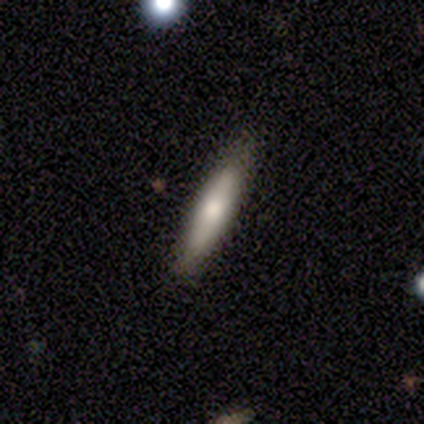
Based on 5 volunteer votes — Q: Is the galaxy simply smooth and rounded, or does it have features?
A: smooth — 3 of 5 (60%).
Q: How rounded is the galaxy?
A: cigar-shaped — 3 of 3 (100%).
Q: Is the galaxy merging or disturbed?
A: none — 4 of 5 (80%).